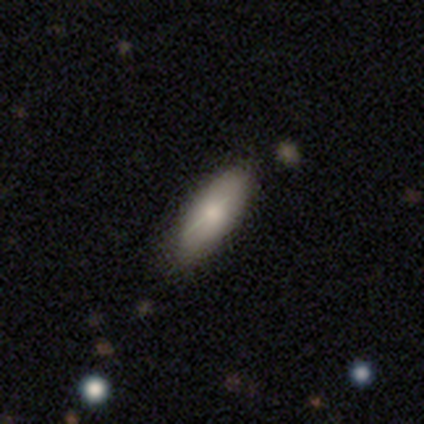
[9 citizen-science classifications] Smooth or featured?
  - smooth: 67% *
  - featured or disk: 33%
  - star or artifact: 0%
How rounded?
  - in between: 67% *
  - cigar-shaped: 33%
  - round: 0%
Merging?
  - minor disturbance: 67% *
  - none: 33%
  - major disturbance: 0%
  - merger: 0%